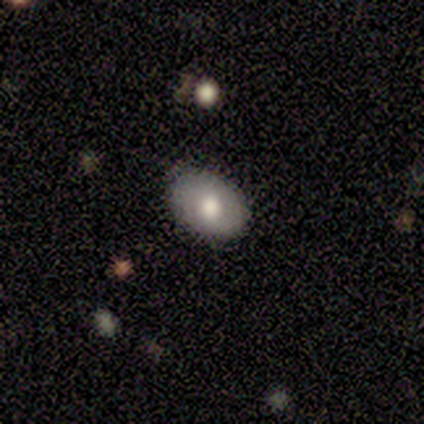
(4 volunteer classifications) Smooth or featured?
  - smooth: 100% *
  - featured or disk: 0%
  - star or artifact: 0%
How rounded?
  - in between: 100% *
  - round: 0%
  - cigar-shaped: 0%
Merging?
  - none: 75% *
  - minor disturbance: 25%
  - major disturbance: 0%
  - merger: 0%